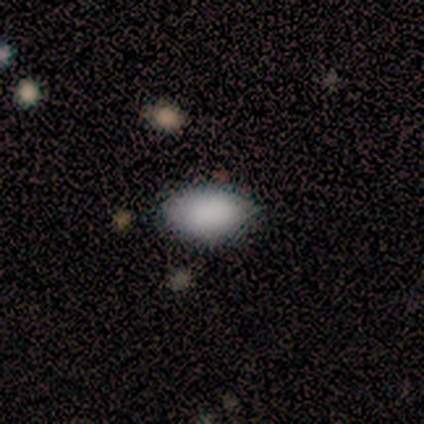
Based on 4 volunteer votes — smooth_or_featured: smooth (p=0.75) [alt: featured or disk p=0.25]
how_rounded: in between (p=1.00)
merging: none (p=0.75) [alt: minor disturbance p=0.25]